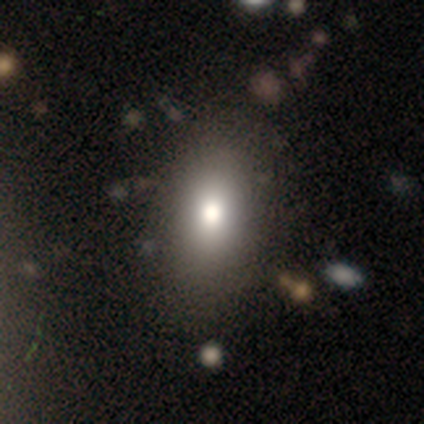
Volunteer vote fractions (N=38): Overall: smooth (89%). How rounded: in between (79%). Merging: none (65%).